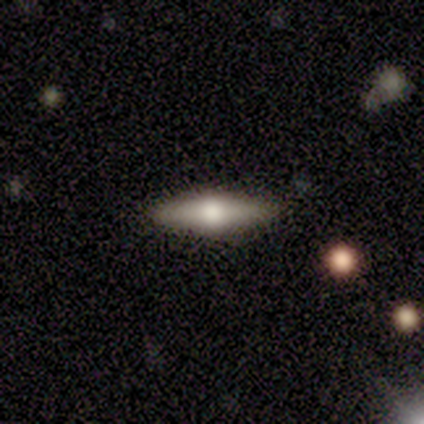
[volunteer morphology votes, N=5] smooth 60%, featured or disk 40%, star or artifact 0%. Down the decision tree: how rounded — cigar-shaped (67%); merging — none (80%).